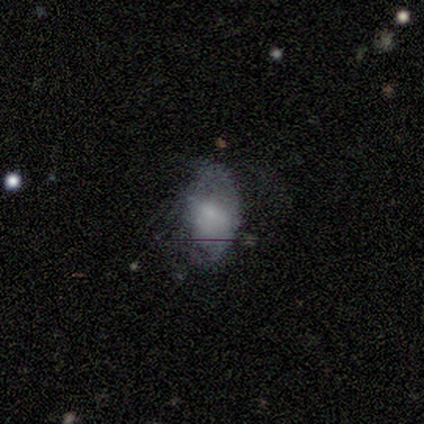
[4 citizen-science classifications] Smooth or featured?
  - featured or disk: 75% *
  - smooth: 25%
  - star or artifact: 0%
Edge-on disk?
  - no: 100% *
  - yes: 0%
Bar?
  - no: 67% *
  - weak: 33%
  - strong: 0%
Spiral arms?
  - no: 67% *
  - yes: 33%
Bulge size?
  - small: 67% *
  - none: 33%
  - dominant: 0%
  - large: 0%
  - moderate: 0%
Merging?
  - major disturbance: 50% *
  - none: 25%
  - minor disturbance: 25%
  - merger: 0%